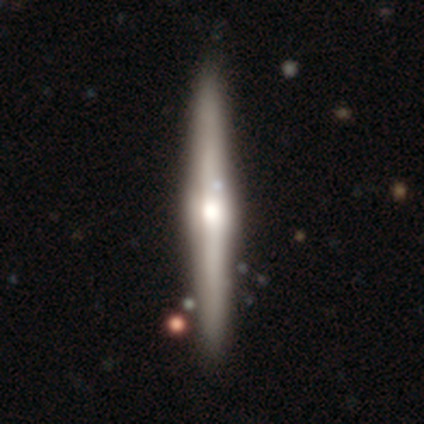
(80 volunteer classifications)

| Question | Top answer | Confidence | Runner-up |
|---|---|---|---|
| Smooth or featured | featured or disk | 78% | smooth (18%) |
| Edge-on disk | yes | 100% | — |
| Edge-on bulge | rounded | 90% | boxy (10%) |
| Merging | none | 41% | minor disturbance (7%) |